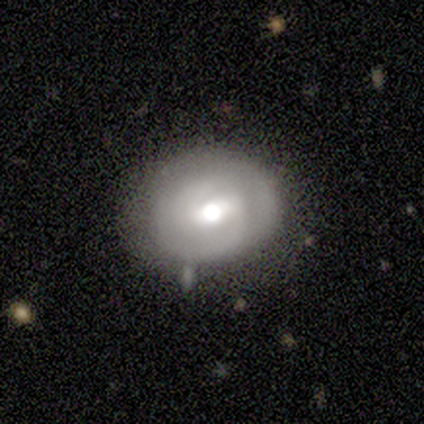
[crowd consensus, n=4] smooth-or-featured: featured or disk: 75% | smooth: 25% | star or artifact: 0%
  disk-edge-on: no: 100% | yes: 0%
    bar: weak: 100% | strong: 0% | no: 0%
    has-spiral-arms: yes: 100% | no: 0%
      spiral-winding: tight: 100% | medium: 0% | loose: 0%
      spiral-arm-count: 2: 100% | 1: 0% | 3: 0% | 4: 0% | more than 4: 0% | can't tell: 0%
    bulge-size: moderate: 100% | dominant: 0% | large: 0% | small: 0% | none: 0%
  merging: none: 75% | minor disturbance: 25% | major disturbance: 0% | merger: 0%